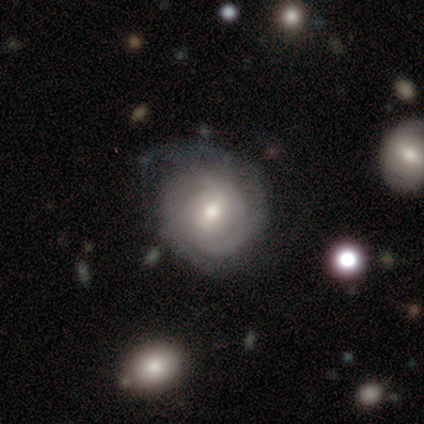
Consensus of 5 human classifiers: featured or disk 100%, smooth 0%, star or artifact 0%. Down the decision tree: edge-on disk — no (100%); bar — no (60%); spiral arms — yes (100%); spiral arm count — 2 (60%); spiral winding — tight (100%); bulge size — moderate (80%); merging — none (80%).